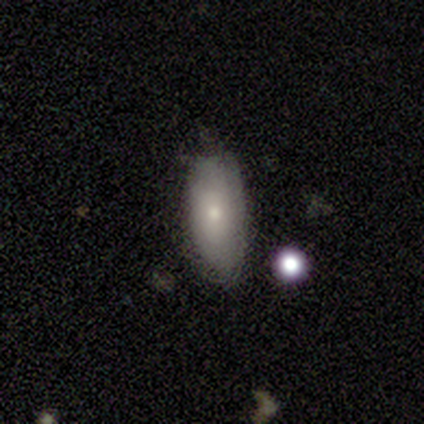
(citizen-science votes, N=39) Smooth or featured? 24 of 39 (62%) said smooth. How rounded? 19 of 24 (79%) said in between. Merging? 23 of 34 (68%) said none.